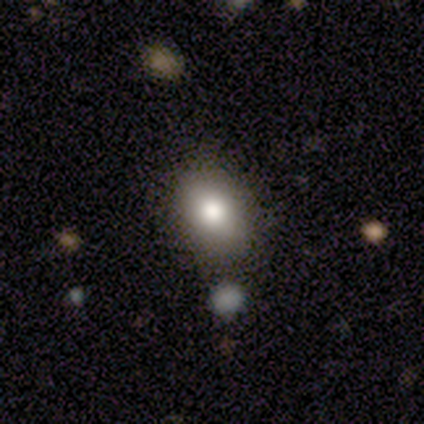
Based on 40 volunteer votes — Smooth or featured? smooth (82%)
How rounded? in between (61%)
Merging? none (86%)